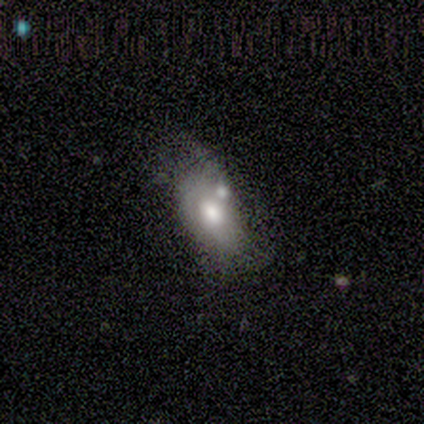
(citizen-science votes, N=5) smooth 60%, featured or disk 40%, star or artifact 0%. Down the decision tree: how rounded — in between (67%); merging — merger (80%).